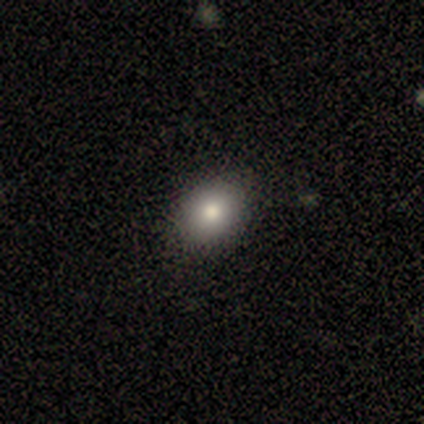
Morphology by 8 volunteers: Smooth or featured: smooth — 100%
How rounded: in between — 88% (round — 12%)
Merging: none — 88% (minor disturbance — 12%)